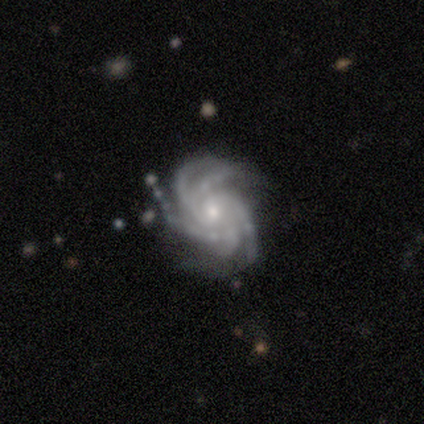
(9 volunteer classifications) featured or disk 100%, smooth 0%, star or artifact 0%. Down the decision tree: edge-on disk — no (100%); bar — no (56%); spiral arms — yes (100%); spiral arm count — more than 4 (56%); spiral winding — tight (89%); bulge size — small (67%); merging — none (100%).